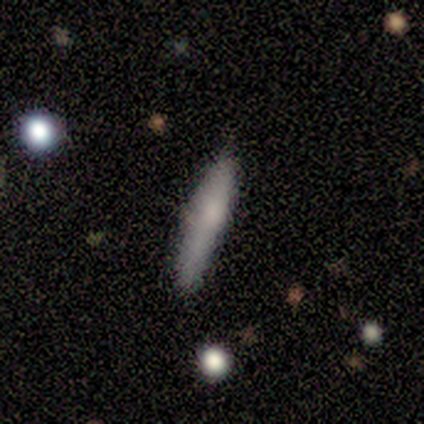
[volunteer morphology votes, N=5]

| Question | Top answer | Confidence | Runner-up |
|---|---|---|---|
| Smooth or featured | smooth | 80% | featured or disk (20%) |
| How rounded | cigar-shaped | 100% | — |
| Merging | none | 80% | minor disturbance (20%) |